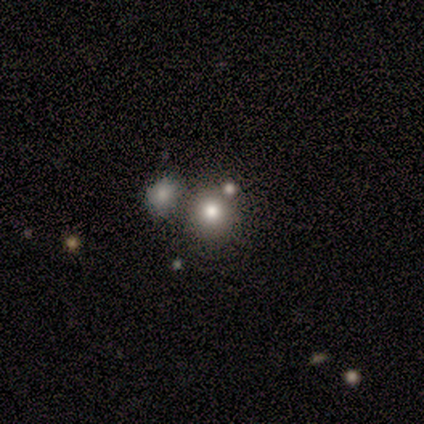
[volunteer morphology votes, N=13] Overall: smooth (69%). How rounded: round (89%). Merging: none (70%).